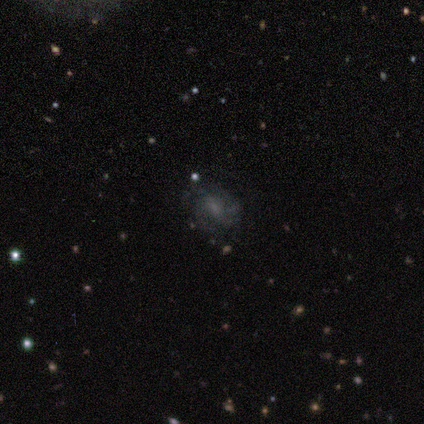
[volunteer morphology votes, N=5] featured or disk 100%, smooth 0%, star or artifact 0%. Down the decision tree: edge-on disk — no (100%); bar — weak (80%); spiral arms — yes (80%); spiral arm count — 3 (50%); spiral winding — medium (50%); bulge size — small (80%); merging — minor disturbance (60%).